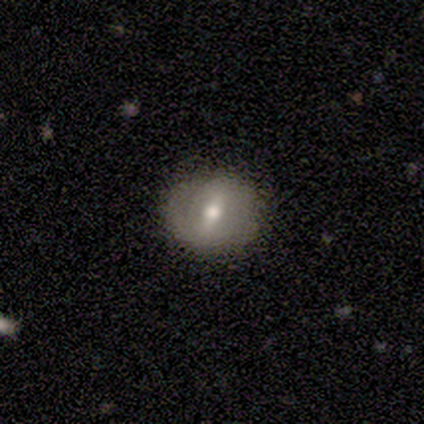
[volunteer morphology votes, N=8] Smooth or featured?
  - featured or disk: 75% *
  - smooth: 25%
  - star or artifact: 0%
Edge-on disk?
  - no: 100% *
  - yes: 0%
Bar?
  - strong: 50% *
  - weak: 33%
  - no: 17%
Spiral arms?
  - yes: 50% * (tied)
  - no: 50% * (tied)
Spiral winding?
  - loose: 67% *
  - medium: 33%
  - tight: 0%
Spiral arm count?
  - 2: 67% *
  - 1: 33%
  - 3: 0%
  - 4: 0%
  - more than 4: 0%
  - can't tell: 0%
Bulge size?
  - moderate: 50% *
  - small: 33%
  - large: 17%
  - dominant: 0%
  - none: 0%
Merging?
  - none: 75% *
  - minor disturbance: 25%
  - major disturbance: 0%
  - merger: 0%